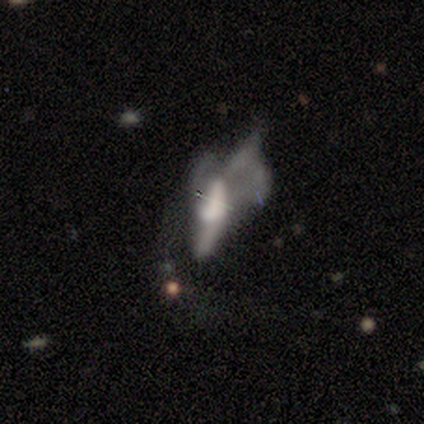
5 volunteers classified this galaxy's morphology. Q: Smooth or featured?
A: smooth (60%); runner-up: star or artifact (40%)
Q: How rounded?
A: in between (67%); runner-up: cigar-shaped (33%)
Q: Merging?
A: major disturbance (67%); runner-up: merger (33%)